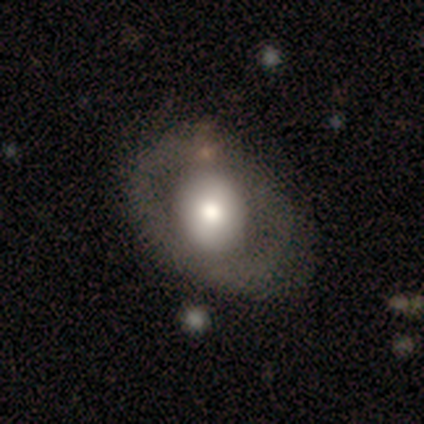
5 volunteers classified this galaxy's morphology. A smooth galaxy with no disk features (60%) that is round (67%).

Vote fractions:
- Smooth or featured? smooth: 60% / featured or disk: 20% / star or artifact: 20%
- How rounded? round: 67% / in between: 33% / cigar-shaped: 0%
- Merging? none: 50% (tied) / minor disturbance: 50% (tied) / major disturbance: 0% / merger: 0%